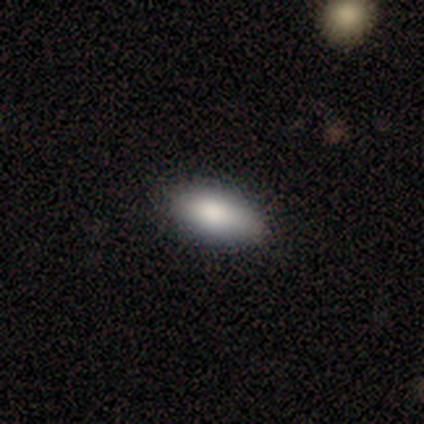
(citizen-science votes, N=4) This appears to be a smooth galaxy with no disk features (100%) that is in between round and cigar-shaped (75%). Merging: none (75%).